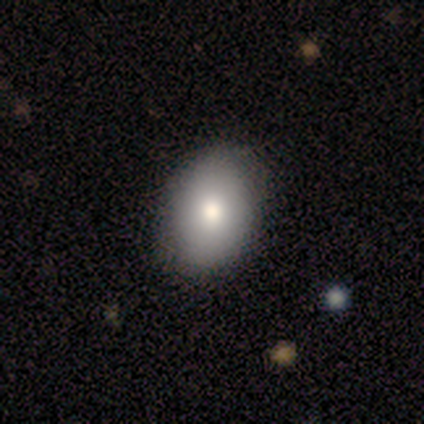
A smooth galaxy with no disk features (100%) that is in between round and cigar-shaped (75%). Merging: none (100%).